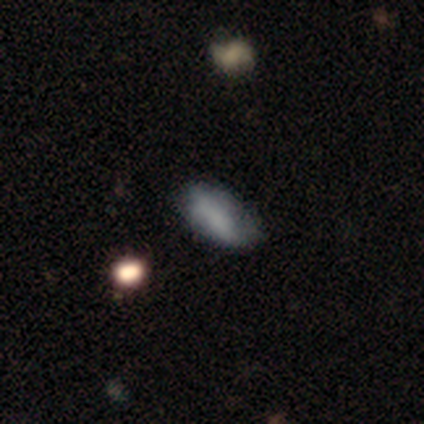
Morphology: type=smooth (76%); roundness=in between (93%); merging=none (65%).